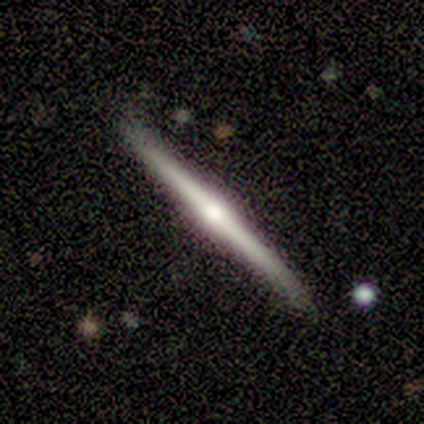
A featured or disk galaxy (80%) viewed edge-on (100%) with a rounded central bulge (75%). Merging: none (100%).